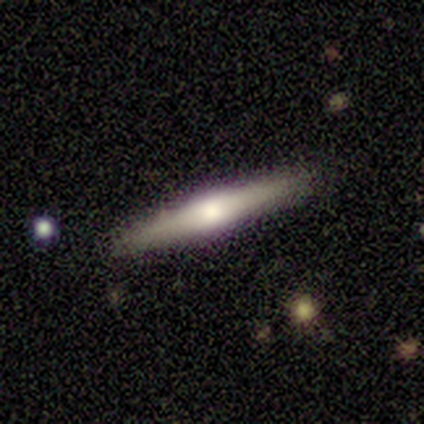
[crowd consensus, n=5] smooth_or_featured: featured or disk (p=0.60) [alt: smooth p=0.40]
disk_edge_on: yes (p=1.00)
edge_on_bulge: boxy (p=0.67) [alt: rounded p=0.33]
merging: none (p=1.00)